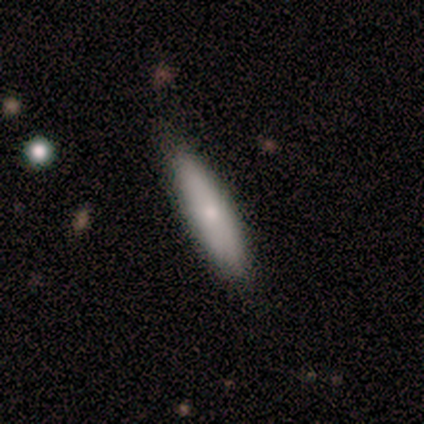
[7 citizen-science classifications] Morphology: type=smooth (100%); roundness=cigar-shaped (71%); merging=none (86%).